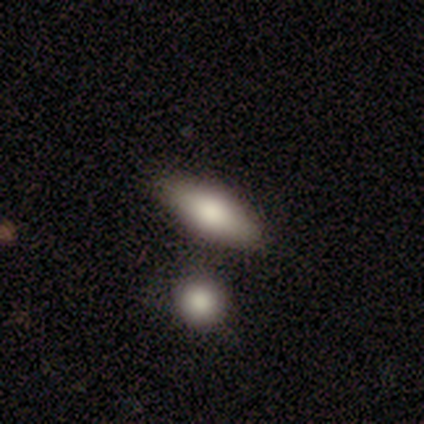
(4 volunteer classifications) smooth_or_featured: smooth (p=0.75) [alt: featured or disk p=0.25]
how_rounded: in between (p=0.67) [alt: cigar-shaped p=0.33]
merging: none (p=0.75) [alt: minor disturbance p=0.25]